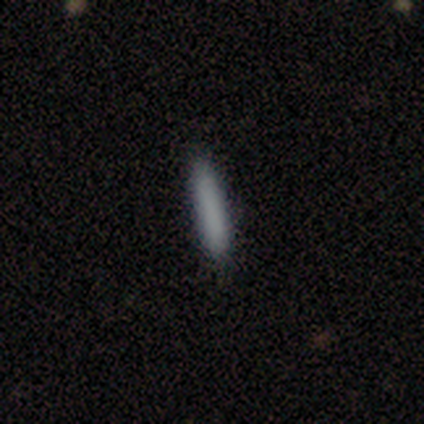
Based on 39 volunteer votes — smooth_or_featured: smooth (p=0.77) [alt: featured or disk p=0.13]
how_rounded: cigar-shaped (p=0.93) [alt: in between p=0.07]
merging: none (p=0.91) [alt: minor disturbance p=0.09]